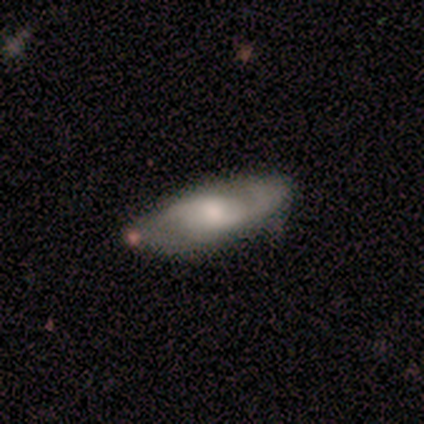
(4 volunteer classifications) Smooth or featured: featured or disk — 75% (smooth — 25%)
Edge-on disk: yes — 67% (no — 33%)
Edge-on bulge: rounded — 100%
Merging: minor disturbance — 100%